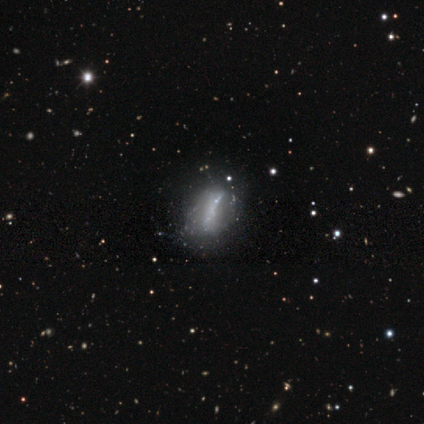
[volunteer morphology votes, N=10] smooth-or-featured: featured or disk: 50% | smooth: 40% | star or artifact: 10%
  disk-edge-on: no: 100% | yes: 0%
    bar: no: 80% | strong: 20% | weak: 0%
    has-spiral-arms: no: 100% | yes: 0%
    bulge-size: none: 100% | dominant: 0% | large: 0% | moderate: 0% | small: 0%
  merging: none: 56% | minor disturbance: 33% | major disturbance: 11% | merger: 0%